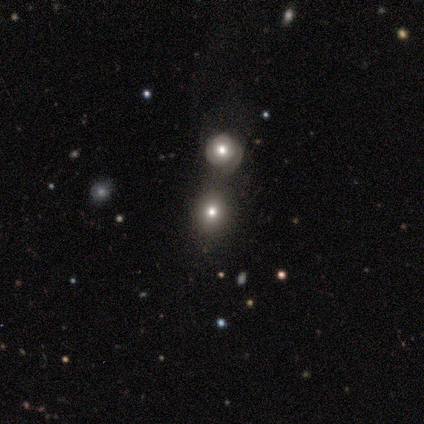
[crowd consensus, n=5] smooth_or_featured: smooth (p=0.80) [alt: star or artifact p=0.20]
how_rounded: round (p=1.00)
merging: merger (p=0.50) [alt: none p=0.25]